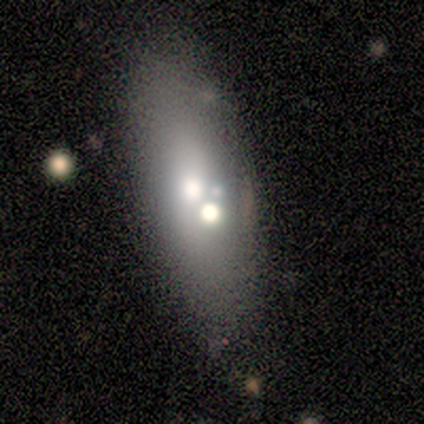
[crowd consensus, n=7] A smooth galaxy with no disk features (43%, tied with featured or disk) that is in between round and cigar-shaped (100%).

Vote fractions:
- Smooth or featured? smooth: 43% (tied) / featured or disk: 43% (tied) / star or artifact: 14%
- How rounded? in between: 100% / round: 0% / cigar-shaped: 0%
- Merging? none: 50% / merger: 33% / minor disturbance: 17% / major disturbance: 0%